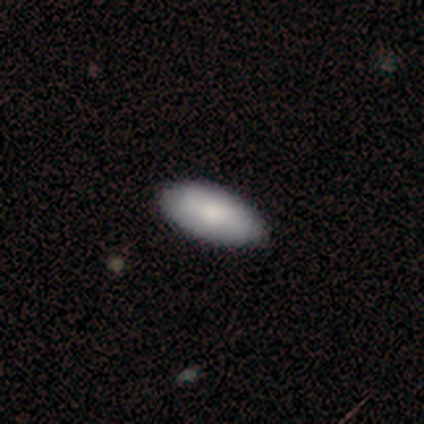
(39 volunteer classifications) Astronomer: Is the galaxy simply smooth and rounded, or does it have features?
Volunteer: smooth — 82%.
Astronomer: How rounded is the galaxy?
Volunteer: in between — 84%.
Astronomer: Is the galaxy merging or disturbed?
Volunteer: none — 70%.